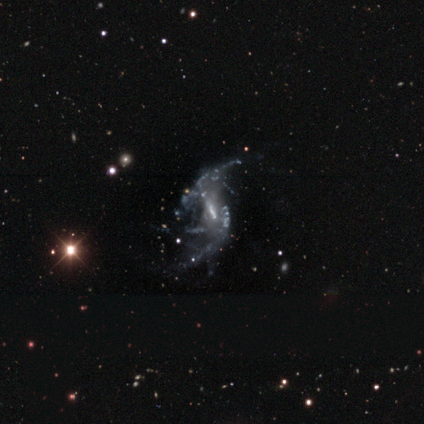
smooth-or-featured: featured or disk: 100% | smooth: 0% | star or artifact: 0%
  disk-edge-on: no: 100% | yes: 0%
    bar: weak: 60% | strong: 40% | no: 0%
    has-spiral-arms: yes: 80% | no: 20%
      spiral-winding: medium: 50% | tight: 25% | loose: 25%
      spiral-arm-count: can't tell: 50% | 2: 25% | more than 4: 25% | 1: 0% | 3: 0% | 4: 0%
    bulge-size: moderate: 60% | small: 20% | none: 20% | dominant: 0% | large: 0%
  merging: major disturbance: 80% | none: 20% | minor disturbance: 0% | merger: 0%